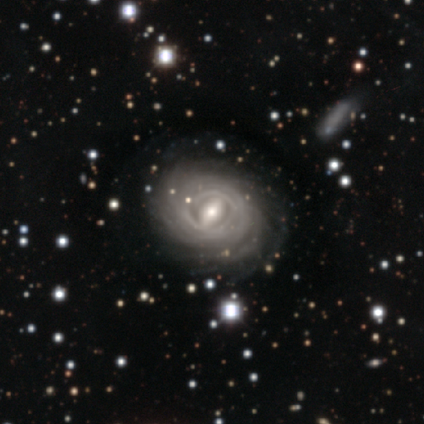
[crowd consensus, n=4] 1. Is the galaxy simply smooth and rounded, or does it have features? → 75% featured or disk, 25% star or artifact, 0% smooth.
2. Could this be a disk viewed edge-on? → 100% no, 0% yes.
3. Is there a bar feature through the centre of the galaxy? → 67% weak, 33% strong, 0% no.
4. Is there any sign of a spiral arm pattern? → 100% yes, 0% no.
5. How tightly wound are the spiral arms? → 100% tight, 0% medium, 0% loose.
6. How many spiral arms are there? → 67% can't tell, 33% more than 4, 0% 1, 0% 2, 0% 3, 0% 4.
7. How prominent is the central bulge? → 67% small, 33% moderate, 0% dominant, 0% large, 0% none.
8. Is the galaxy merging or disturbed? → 100% none, 0% minor disturbance, 0% major disturbance, 0% merger.